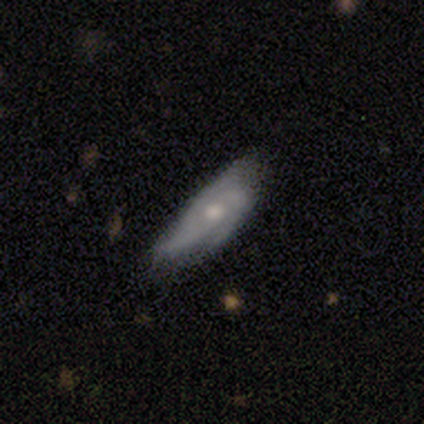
Morphology: type=featured or disk (69%); edge-on=no (89%); bar=no (88%); spiral arms=yes (75%); winding=medium (67%); arm count=3 (83%); bulge=moderate (50%); merging=minor disturbance (54%).